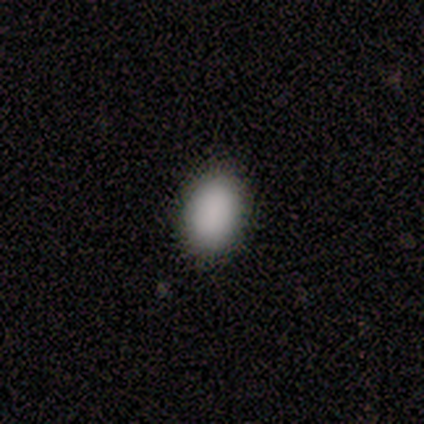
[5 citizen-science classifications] A smooth galaxy with no disk features (100%) that is in between round and cigar-shaped (80%).

Vote fractions:
- Smooth or featured? smooth: 100% / featured or disk: 0% / star or artifact: 0%
- How rounded? in between: 80% / round: 20% / cigar-shaped: 0%
- Merging? none: 100% / minor disturbance: 0% / major disturbance: 0% / merger: 0%